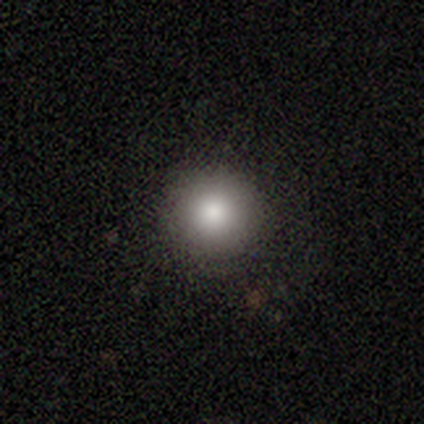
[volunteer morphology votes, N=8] smooth_or_featured: smooth (p=0.88) [alt: star or artifact p=0.12]
how_rounded: round (p=1.00)
merging: none (p=1.00)